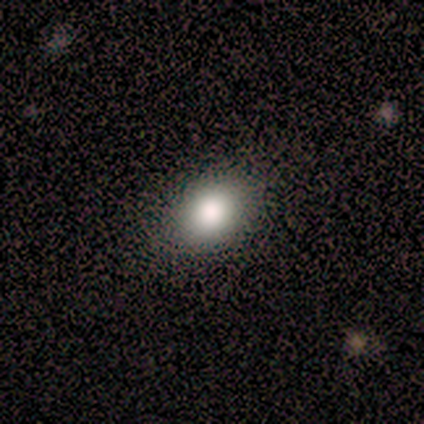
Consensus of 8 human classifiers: Volunteers were most divided on "how rounded": in between: 62%, round: 38%, cigar-shaped: 0%. More confident: smooth or featured — smooth (100%); merging — none (88%).